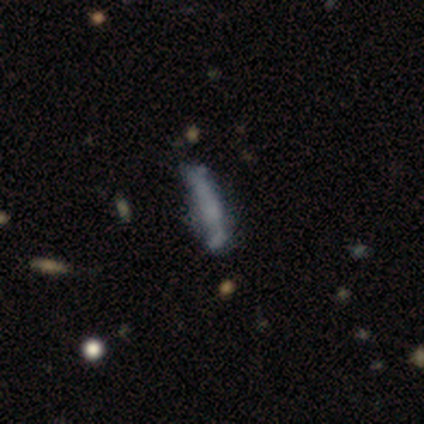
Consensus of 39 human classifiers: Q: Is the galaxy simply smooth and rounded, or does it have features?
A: smooth — 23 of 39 (59%).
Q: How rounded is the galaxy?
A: cigar-shaped — 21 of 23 (91%).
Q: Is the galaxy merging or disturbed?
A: none — 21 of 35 (60%).